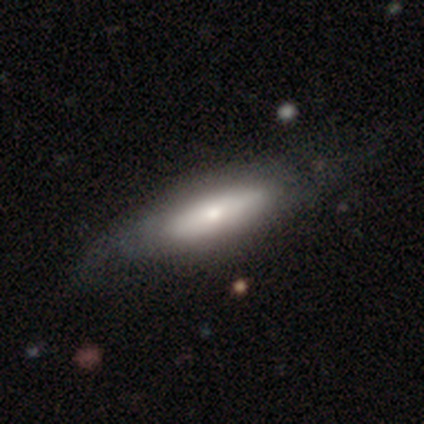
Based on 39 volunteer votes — A smooth galaxy with no disk features (51%) that is cigar-shaped (55%).

Vote fractions:
- Smooth or featured? smooth: 51% / featured or disk: 46% / star or artifact: 3%
- How rounded? cigar-shaped: 55% / in between: 45% / round: 0%
- Merging? none: 50% / major disturbance: 16% / minor disturbance: 13% / merger: 0%